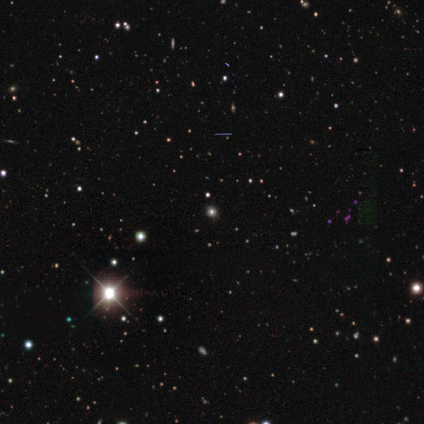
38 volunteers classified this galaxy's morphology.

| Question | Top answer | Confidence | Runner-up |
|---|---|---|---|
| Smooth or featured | star or artifact | 87% | smooth (13%) |